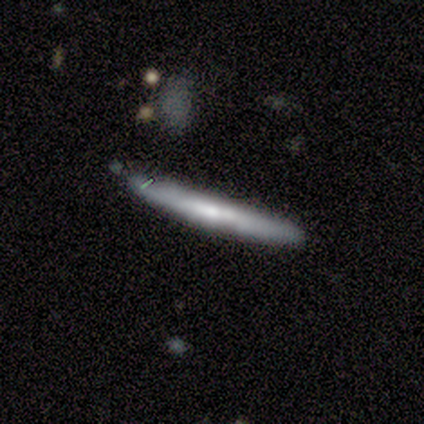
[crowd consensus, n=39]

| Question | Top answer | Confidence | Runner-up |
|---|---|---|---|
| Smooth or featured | featured or disk | 54% | smooth (38%) |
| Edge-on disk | yes | 90% | no (10%) |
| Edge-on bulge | none | 68% | rounded (26%) |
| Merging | none | 67% | minor disturbance (28%) |